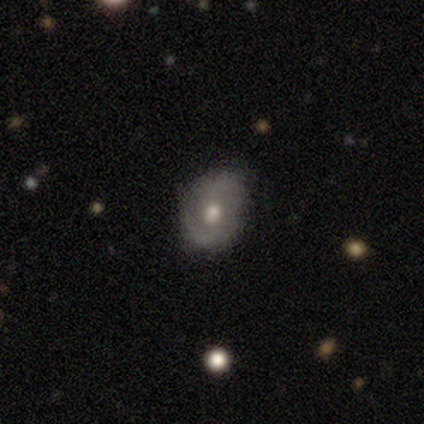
Smooth or featured?
  - featured or disk: 46% *
  - smooth: 41%
  - star or artifact: 13%
Edge-on disk?
  - no: 94% *
  - yes: 6%
Bar?
  - no: 76% *
  - weak: 24%
  - strong: 0%
Spiral arms?
  - yes: 71% *
  - no: 29%
Spiral winding?
  - medium: 50% *
  - tight: 25%
  - loose: 25%
Spiral arm count?
  - 2: 50% *
  - can't tell: 42%
  - 1: 8%
  - 3: 0%
  - 4: 0%
  - more than 4: 0%
Bulge size?
  - moderate: 65% *
  - large: 18%
  - small: 18%
  - dominant: 0%
  - none: 0%
Merging?
  - none: 79% *
  - minor disturbance: 18%
  - merger: 3%
  - major disturbance: 0%